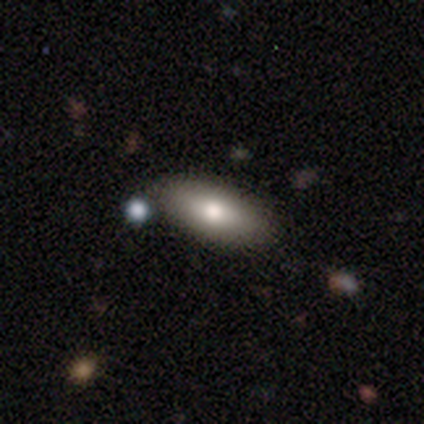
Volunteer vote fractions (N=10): smooth 70%, featured or disk 20%, star or artifact 10%. Down the decision tree: how rounded — in between (71%); merging — none (78%).